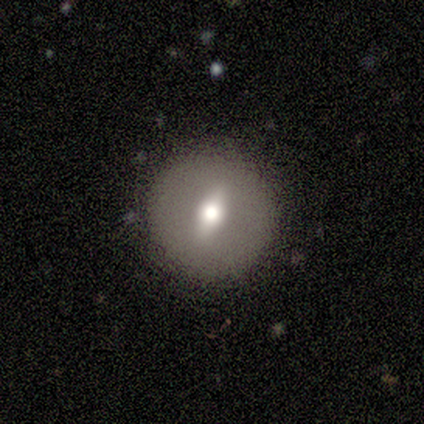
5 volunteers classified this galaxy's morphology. smooth_or_featured: smooth (p=0.60) [alt: featured or disk p=0.40]
how_rounded: round (p=1.00)
merging: none (p=1.00)